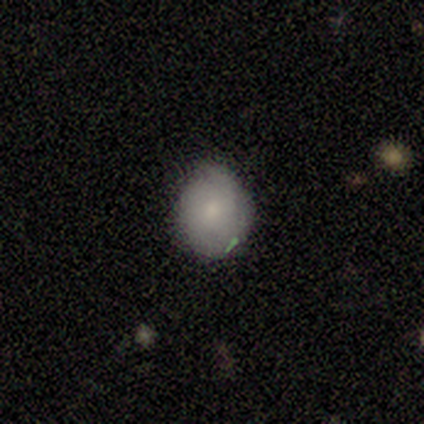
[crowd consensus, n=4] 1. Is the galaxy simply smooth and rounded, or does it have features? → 100% smooth, 0% featured or disk, 0% star or artifact.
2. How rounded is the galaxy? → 100% in between, 0% round, 0% cigar-shaped.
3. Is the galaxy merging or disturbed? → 75% minor disturbance, 25% none, 0% major disturbance, 0% merger.